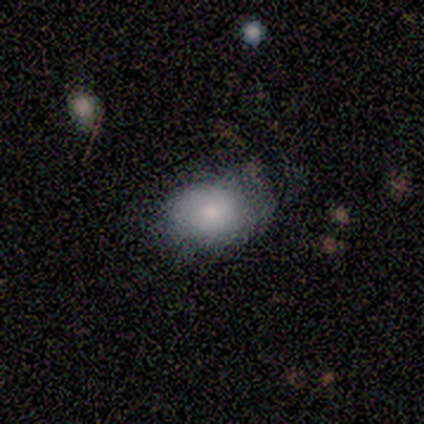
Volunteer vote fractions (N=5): smooth 80%, featured or disk 20%, star or artifact 0%. Down the decision tree: how rounded — in between (75%); merging — none (60%).